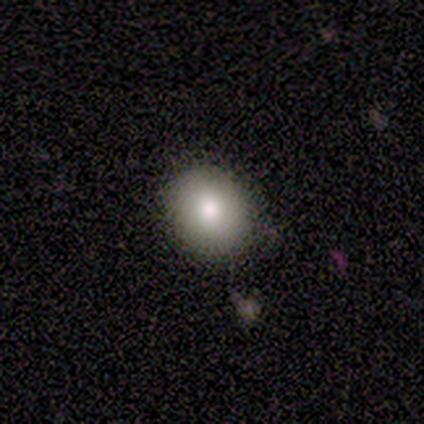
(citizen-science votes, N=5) Smooth or featured? 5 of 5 (100%) said smooth. How rounded? 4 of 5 (80%) said round. Merging? 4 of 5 (80%) said none.